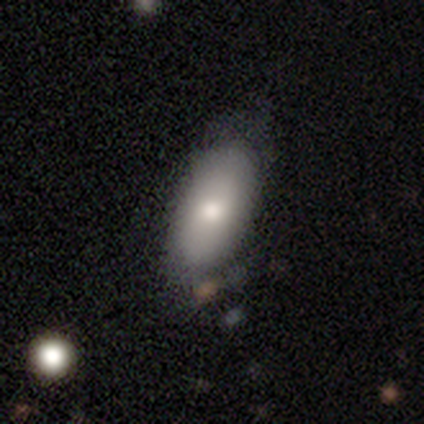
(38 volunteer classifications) Volunteers were most divided on "smooth or featured": smooth: 63%, featured or disk: 32%, star or artifact: 5%. More confident: how rounded — in between (96%); merging — none (53%).